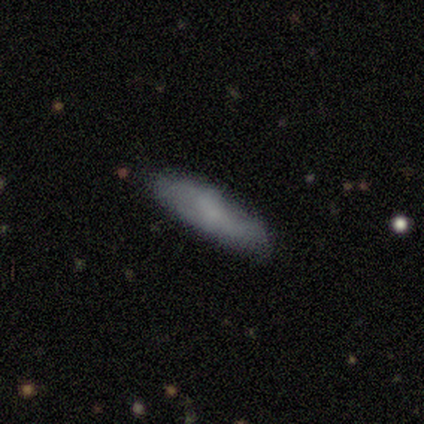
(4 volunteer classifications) Smooth or featured? 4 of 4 (100%) said smooth. How rounded? 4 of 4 (100%) said cigar-shaped. Merging? 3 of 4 (75%) said none.